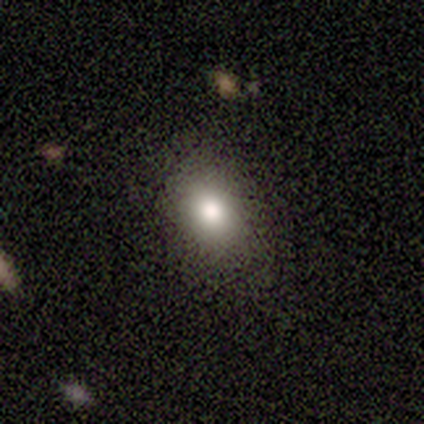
smooth 80%, featured or disk 20%, star or artifact 0%. Down the decision tree: how rounded — in between (75%); merging — none (80%).